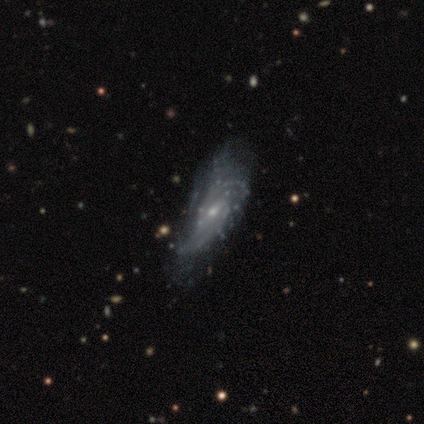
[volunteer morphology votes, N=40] smooth-or-featured: featured or disk: 82% | smooth: 12% | star or artifact: 5%
  disk-edge-on: no: 94% | yes: 6%
    bar: no: 48% | weak: 35% | strong: 16%
    has-spiral-arms: yes: 81% | no: 19%
      spiral-winding: medium: 56% | loose: 24% | tight: 20%
      spiral-arm-count: can't tell: 60% | 2: 40% | 1: 0% | 3: 0% | 4: 0% | more than 4: 0%
    bulge-size: small: 84% | moderate: 16% | dominant: 0% | large: 0% | none: 0%
  merging: major disturbance: 29% | minor disturbance: 16% | none: 13% | merger: 3%